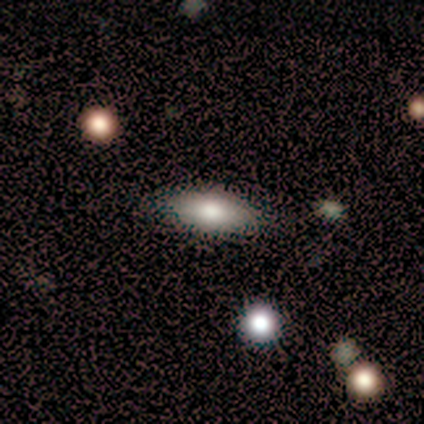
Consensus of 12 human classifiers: Morphology: type=smooth (83%); roundness=in between (50%, tied with cigar-shaped); merging=none (92%).